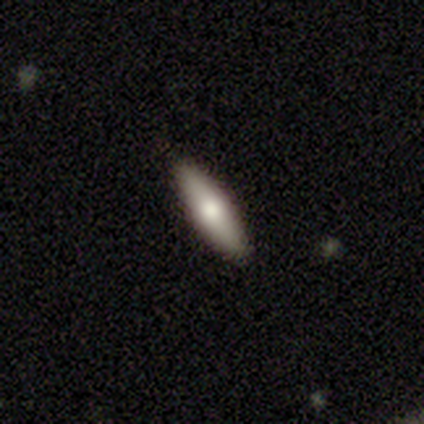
This appears to be a smooth galaxy with no disk features (64%) that is cigar-shaped (78%). Merging: none (100%).